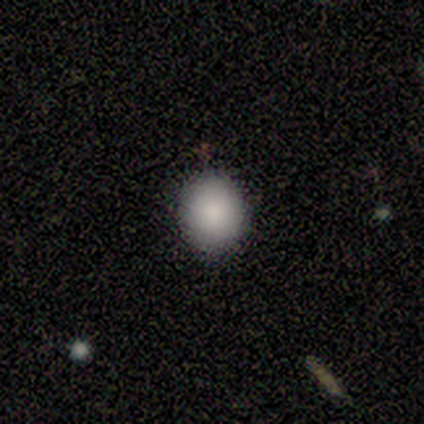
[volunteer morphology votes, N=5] Smooth or featured?
  - smooth: 100% *
  - featured or disk: 0%
  - star or artifact: 0%
How rounded?
  - round: 80% *
  - in between: 20%
  - cigar-shaped: 0%
Merging?
  - none: 100% *
  - minor disturbance: 0%
  - major disturbance: 0%
  - merger: 0%